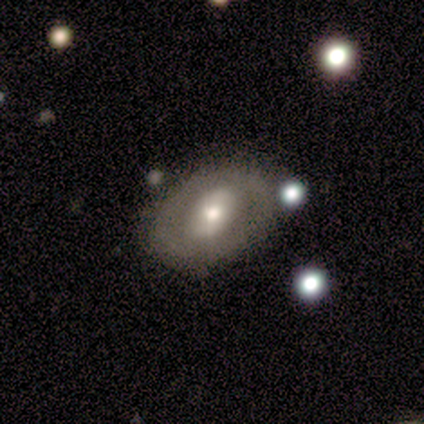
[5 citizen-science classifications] Morphology: type=smooth (60%); roundness=in between (100%); merging=none (100%).